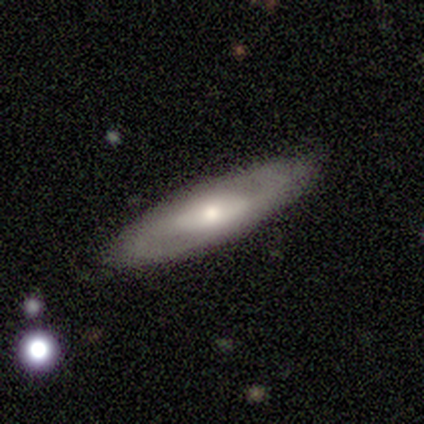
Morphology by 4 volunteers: Smooth or featured? featured or disk (75%)
Edge-on disk? no (67%)
Bar? strong (50%, tied with weak)
Spiral arms? yes (50%, tied with no)
Spiral winding? loose (100%)
Spiral arm count? can't tell (100%)
Bulge size? moderate (100%)
Merging? none (75%)